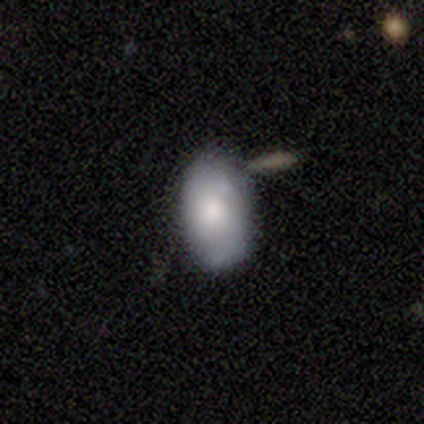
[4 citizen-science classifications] Smooth or featured?
  - smooth: 50% * (tied)
  - star or artifact: 50% * (tied)
  - featured or disk: 0%
How rounded?
  - in between: 100% *
  - round: 0%
  - cigar-shaped: 0%
Merging?
  - none: 50% * (tied)
  - merger: 50% * (tied)
  - minor disturbance: 0%
  - major disturbance: 0%